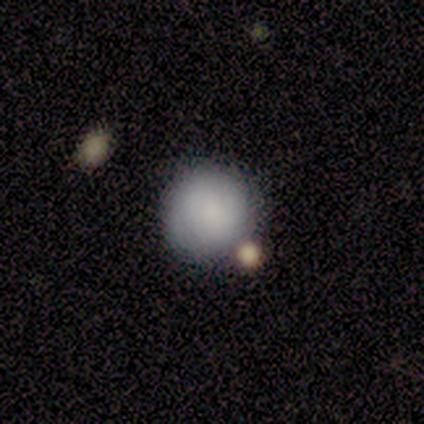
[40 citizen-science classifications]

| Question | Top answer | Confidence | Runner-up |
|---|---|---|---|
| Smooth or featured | smooth | 78% | featured or disk (15%) |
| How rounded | round | 100% | — |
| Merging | none | 73% | minor disturbance (11%) |